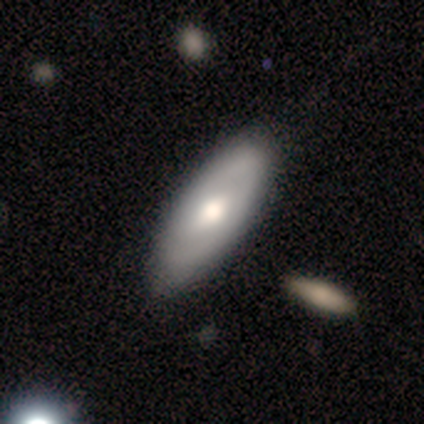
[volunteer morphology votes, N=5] A smooth galaxy with no disk features (60%) that is in between round and cigar-shaped (67%).

Vote fractions:
- Smooth or featured? smooth: 60% / featured or disk: 40% / star or artifact: 0%
- How rounded? in between: 67% / cigar-shaped: 33% / round: 0%
- Merging? none: 80% / minor disturbance: 20% / major disturbance: 0% / merger: 0%